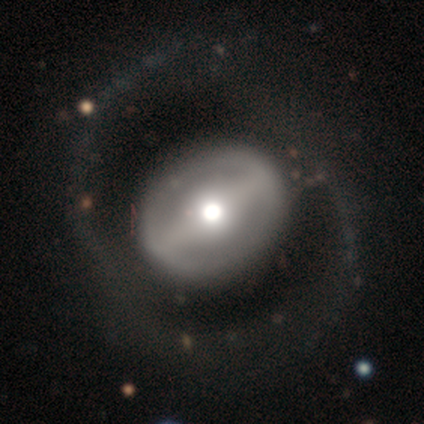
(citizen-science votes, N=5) Smooth or featured? featured or disk (80%)
Edge-on disk? no (75%)
Bar? strong (67%)
Spiral arms? yes (67%)
Spiral winding? tight (50%, tied with medium)
Spiral arm count? 2 (50%, tied with can't tell)
Bulge size? moderate (100%)
Merging? none (40%, tied with minor disturbance)